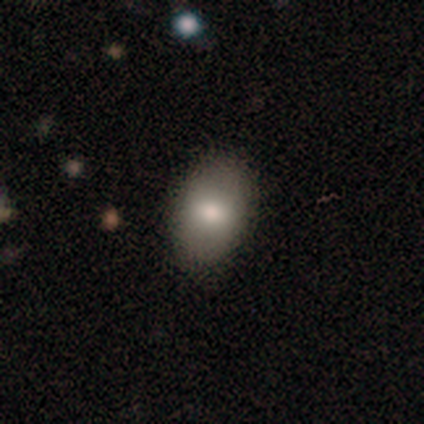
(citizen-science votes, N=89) Smooth or featured? smooth (82%)
How rounded? in between (82%)
Merging? none (82%)